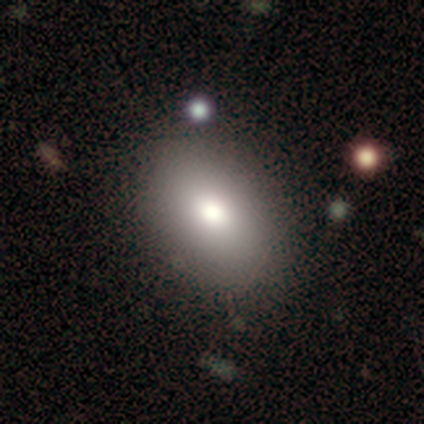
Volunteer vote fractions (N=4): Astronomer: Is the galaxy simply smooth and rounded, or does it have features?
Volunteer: smooth — 100%.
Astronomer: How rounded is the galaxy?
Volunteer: in between — 100%.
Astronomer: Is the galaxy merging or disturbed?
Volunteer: none — 100%.